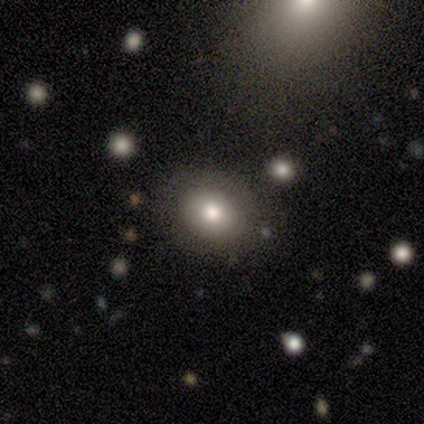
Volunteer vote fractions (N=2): Smooth or featured? smooth (100%)
How rounded? round (50%, tied with in between)
Merging? none (100%)